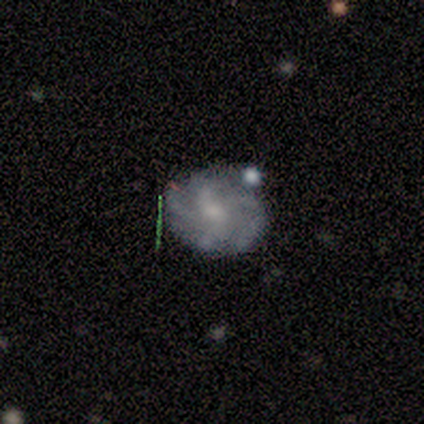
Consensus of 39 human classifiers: This appears to be a featured or disk galaxy (59%) with no bar (59%), 4 (40%) tight (40%) spiral arms (91%) and a small central bulge (64%). Merging: none (73%).